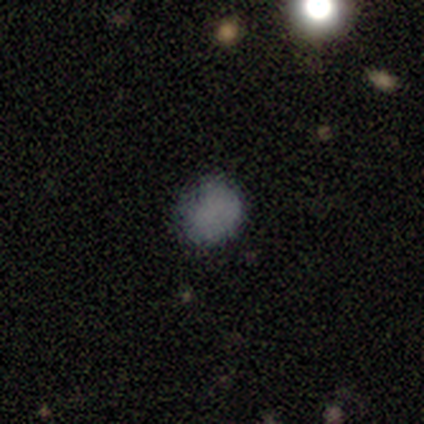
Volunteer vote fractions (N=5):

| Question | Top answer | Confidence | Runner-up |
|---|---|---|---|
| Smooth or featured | smooth | 100% | — |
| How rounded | round | 60% | in between (40%) |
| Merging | none | 100% | — |